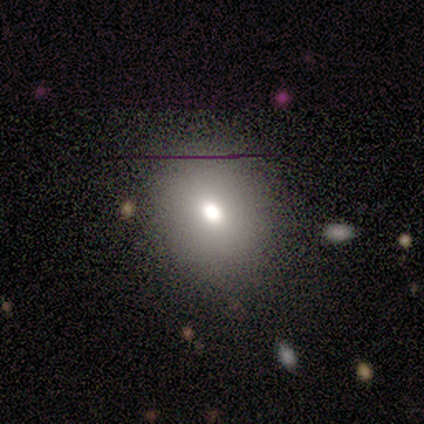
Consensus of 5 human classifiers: Smooth or featured?
  - smooth: 80% *
  - star or artifact: 20%
  - featured or disk: 0%
How rounded?
  - round: 50% * (tied)
  - in between: 50% * (tied)
  - cigar-shaped: 0%
Merging?
  - none: 100% *
  - minor disturbance: 0%
  - major disturbance: 0%
  - merger: 0%